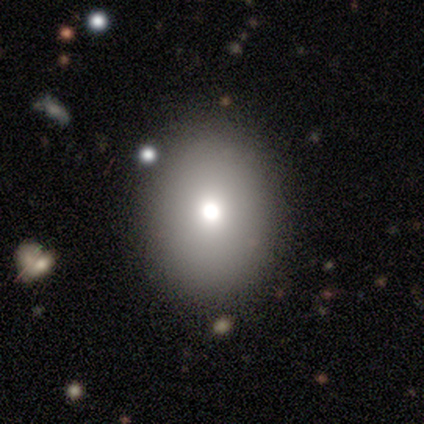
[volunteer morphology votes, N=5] Smooth or featured: smooth — 80% (featured or disk — 20%)
How rounded: in between — 75% (round — 25%)
Merging: none — 80% (minor disturbance — 20%)